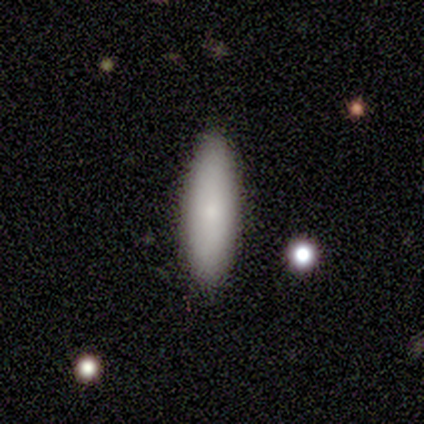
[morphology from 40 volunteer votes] A smooth galaxy with no disk features (78%) that is cigar-shaped (55%).

Vote fractions:
- Smooth or featured? smooth: 78% / star or artifact: 12% / featured or disk: 10%
- How rounded? cigar-shaped: 55% / in between: 45% / round: 0%
- Merging? none: 91% / minor disturbance: 9% / major disturbance: 0% / merger: 0%